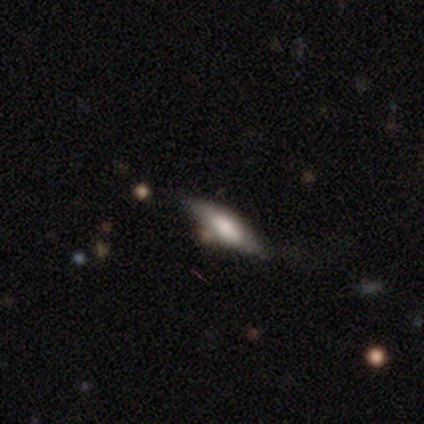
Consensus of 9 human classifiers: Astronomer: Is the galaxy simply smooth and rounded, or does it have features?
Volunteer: smooth — 78%.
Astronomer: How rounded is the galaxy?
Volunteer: in between — 57% (runner-up: cigar-shaped, 43%).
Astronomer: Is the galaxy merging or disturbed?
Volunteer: none — 62%.